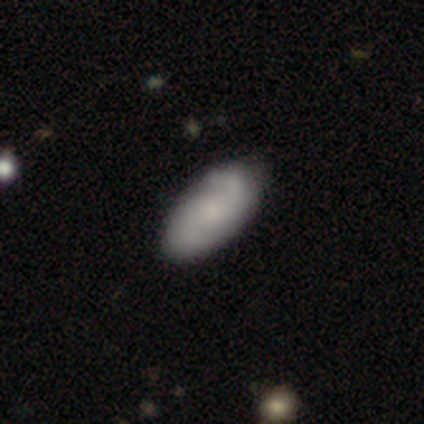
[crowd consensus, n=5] A smooth galaxy with no disk features (80%) that is in between round and cigar-shaped (100%). Merging: none (60%).